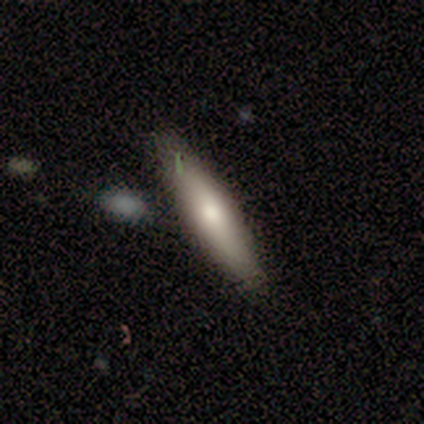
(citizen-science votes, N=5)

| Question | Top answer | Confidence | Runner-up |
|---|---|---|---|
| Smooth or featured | featured or disk | 60% | smooth (20%) |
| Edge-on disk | yes | 100% | — |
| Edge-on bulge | rounded | 67% | none (33%) |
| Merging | none | 50% | minor disturbance (25%) |